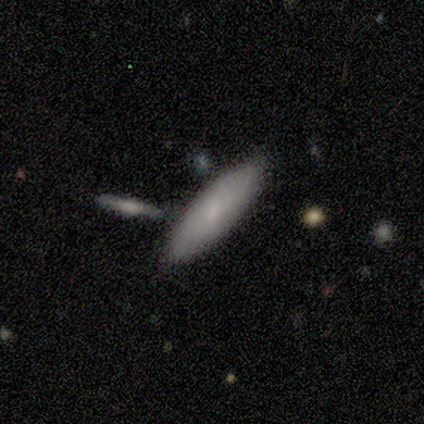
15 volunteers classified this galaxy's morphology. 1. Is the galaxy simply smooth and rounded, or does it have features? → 73% smooth, 27% featured or disk, 0% star or artifact.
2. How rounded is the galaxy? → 55% cigar-shaped, 45% in between, 0% round.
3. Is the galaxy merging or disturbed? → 80% none, 20% minor disturbance, 0% major disturbance, 0% merger.